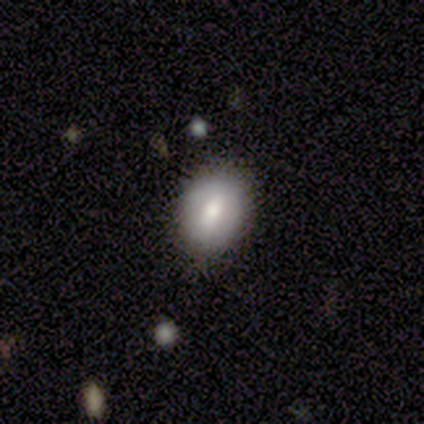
Volunteers were most divided on "how rounded": in between: 73%, round: 27%, cigar-shaped: 0%. More confident: merging — none (82%); smooth or featured — smooth (75%).